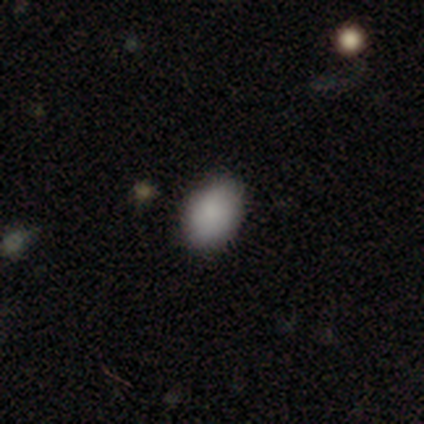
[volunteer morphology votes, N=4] This is clearly a smooth galaxy (100%). How rounded: likely in between (75%). Merging: likely none (75%).